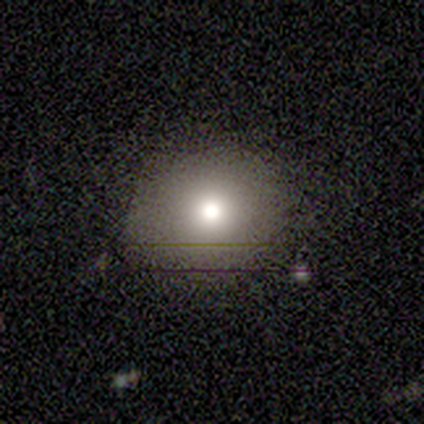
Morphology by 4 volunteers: Smooth or featured?
  - smooth: 75% *
  - star or artifact: 25%
  - featured or disk: 0%
How rounded?
  - round: 100% *
  - in between: 0%
  - cigar-shaped: 0%
Merging?
  - none: 67% *
  - major disturbance: 33%
  - minor disturbance: 0%
  - merger: 0%